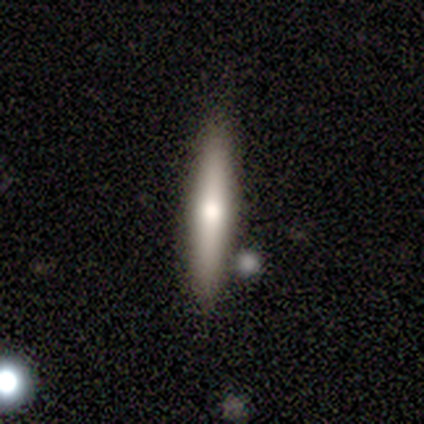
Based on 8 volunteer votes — Smooth or featured?
  - smooth: 62% *
  - featured or disk: 25%
  - star or artifact: 12%
How rounded?
  - cigar-shaped: 100% *
  - round: 0%
  - in between: 0%
Merging?
  - none: 86% *
  - minor disturbance: 14%
  - major disturbance: 0%
  - merger: 0%